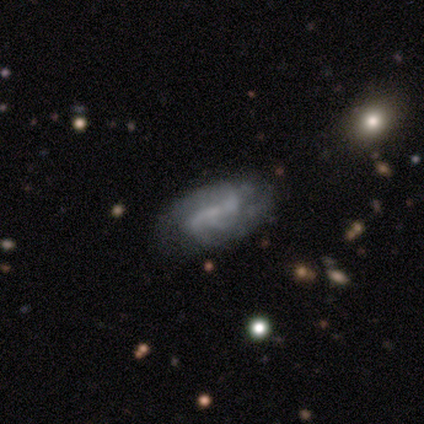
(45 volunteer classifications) This is likely a featured or disk galaxy (62%). It is clearly not viewed edge-on (89%). Bar: marginally strong (40%). Spiral arm pattern: clearly yes (80%). Spiral arm count: marginally 2 (35%, tied with 3). Spiral winding: marginally loose (40%). Central bulge: likely none (60%). Merging: possibly none (56%).